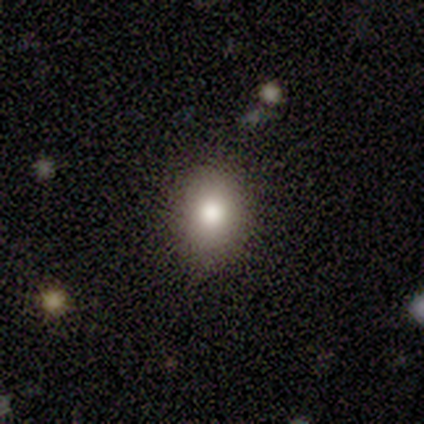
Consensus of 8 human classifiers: This is clearly a smooth galaxy (88%). How rounded: possibly round (57%). Merging: clearly none (86%).